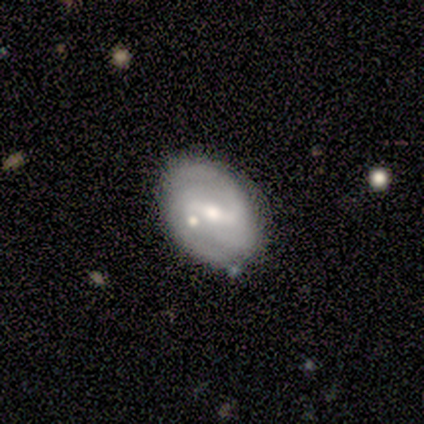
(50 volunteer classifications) Smooth or featured? featured or disk (80%)
Edge-on disk? no (95%)
Bar? weak (50%)
Spiral arms? yes (89%)
Spiral winding? tight (53%)
Spiral arm count? 2 (68%)
Bulge size? moderate (66%)
Merging? none (73%)